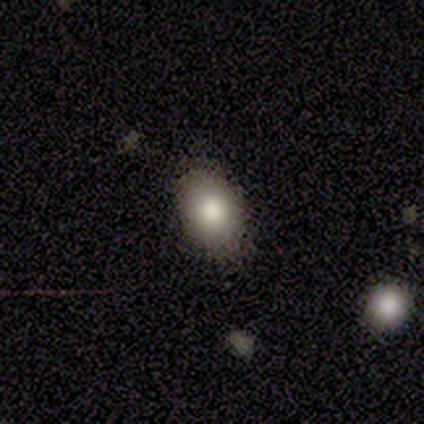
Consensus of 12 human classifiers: smooth_or_featured: smooth (p=0.92) [alt: star or artifact p=0.08]
how_rounded: in between (p=0.82) [alt: round p=0.18]
merging: none (p=0.82) [alt: minor disturbance p=0.18]